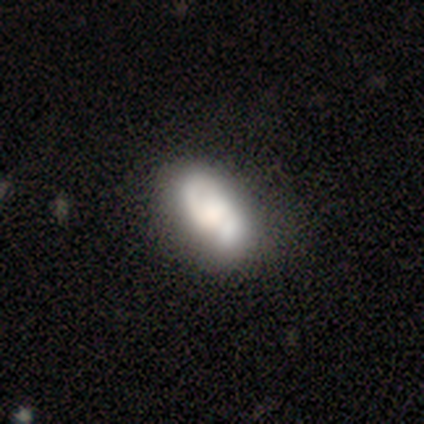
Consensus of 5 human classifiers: Q: Smooth or featured?
A: smooth (60%); runner-up: featured or disk (40%)
Q: How rounded?
A: in between (100%)
Q: Merging?
A: none (60%); runner-up: minor disturbance (20%)